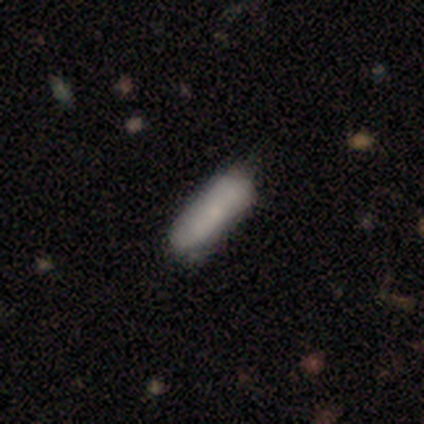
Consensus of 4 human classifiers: This is likely a smooth galaxy (75%). How rounded: clearly cigar-shaped (100%). Merging: clearly none (100%).